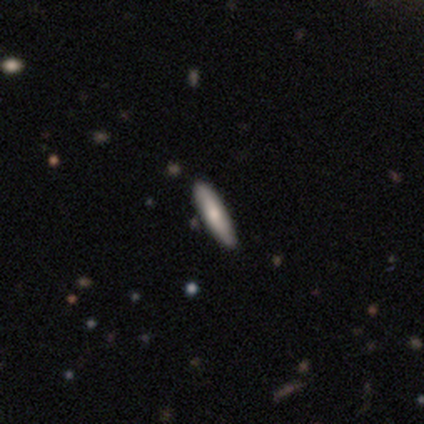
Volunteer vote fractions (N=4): Smooth or featured? 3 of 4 (75%) said smooth. How rounded? 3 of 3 (100%) said cigar-shaped. Merging? 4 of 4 (100%) said none.